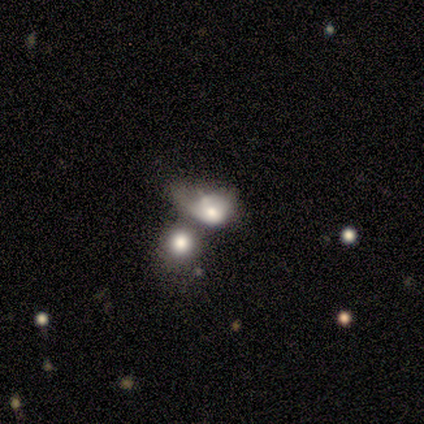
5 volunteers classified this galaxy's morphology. A smooth galaxy with no disk features (40%, tied with featured or disk) that is round (50%, tied with in between). Merging: merger (50%).